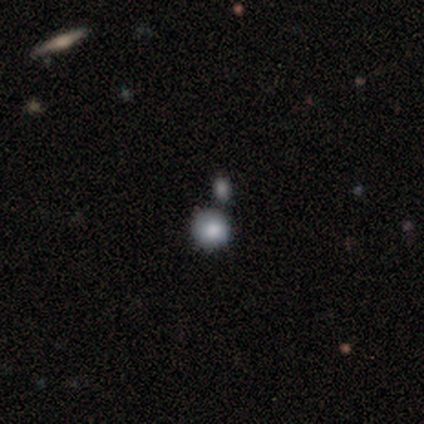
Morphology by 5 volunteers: Overall: smooth (60%; featured or disk 20%). How rounded: round (100%). Merging: none (75%).